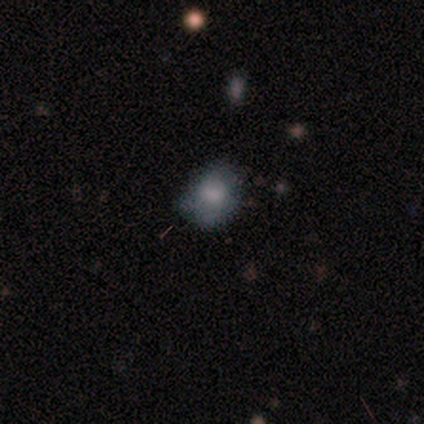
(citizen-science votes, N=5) A smooth galaxy with no disk features (60%) that is in between round and cigar-shaped (100%).

Vote fractions:
- Smooth or featured? smooth: 60% / star or artifact: 40% / featured or disk: 0%
- How rounded? in between: 100% / round: 0% / cigar-shaped: 0%
- Merging? minor disturbance: 67% / major disturbance: 33% / none: 0% / merger: 0%